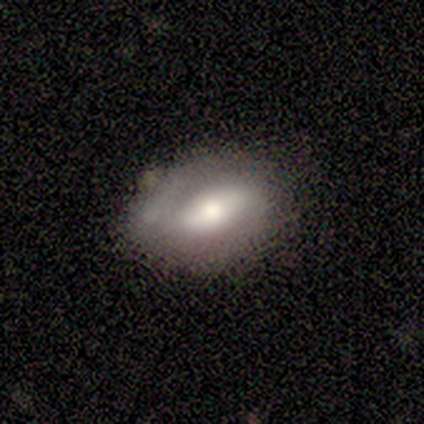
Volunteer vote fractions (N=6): Volunteers were most divided on "smooth or featured": smooth: 67%, featured or disk: 17%, star or artifact: 17%. More confident: merging — none (100%); how rounded — in between (75%).